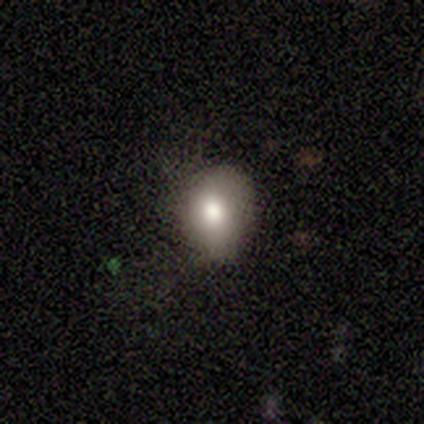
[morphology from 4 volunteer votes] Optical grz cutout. It shows a smooth galaxy with no disk features (100%) that is round (75%). Merging: none (100%).